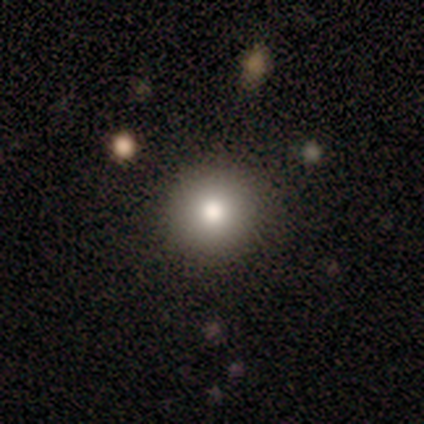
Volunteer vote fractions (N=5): Smooth or featured: smooth — 80% (star or artifact — 20%)
How rounded: round — 100%
Merging: none — 50% (tied with minor disturbance — 50%)